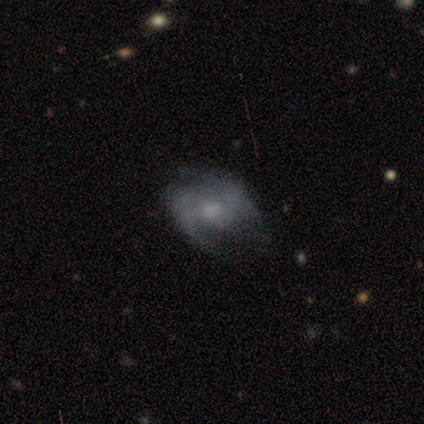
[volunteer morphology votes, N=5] Q: Smooth or featured?
A: featured or disk (80%); runner-up: star or artifact (20%)
Q: Edge-on disk?
A: no (100%)
Q: Bar?
A: no (75%); runner-up: weak (25%)
Q: Spiral arms?
A: no (75%); runner-up: yes (25%)
Q: Bulge size?
A: moderate (50%); tied with: none (50%)
Q: Merging?
A: major disturbance (75%); runner-up: none (25%)